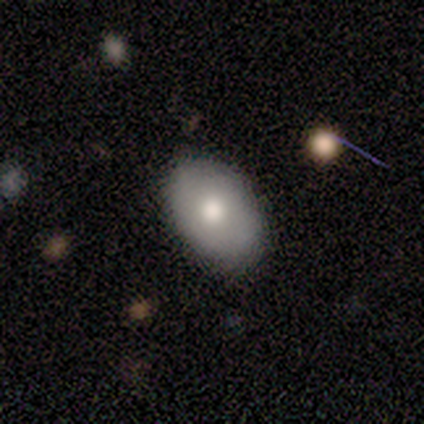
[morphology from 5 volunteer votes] Smooth or featured: smooth — 60% (featured or disk — 40%)
How rounded: in between — 100%
Merging: none — 80% (minor disturbance — 20%)